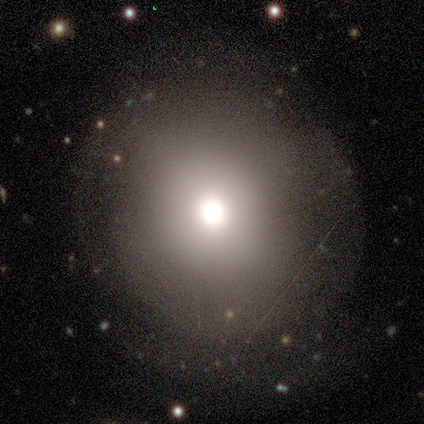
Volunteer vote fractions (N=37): Smooth or featured?
  - smooth: 68% *
  - featured or disk: 27%
  - star or artifact: 5%
How rounded?
  - round: 100% *
  - in between: 0%
  - cigar-shaped: 0%
Merging?
  - none: 74% *
  - minor disturbance: 14%
  - major disturbance: 11%
  - merger: 0%